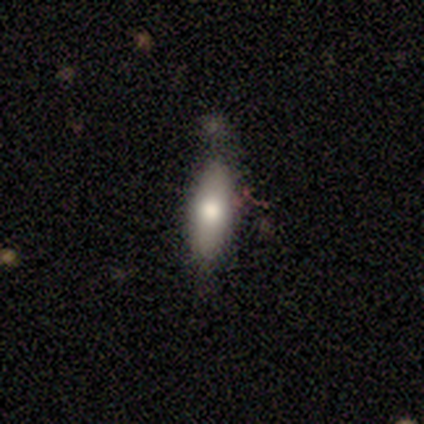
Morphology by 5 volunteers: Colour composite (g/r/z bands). It shows a smooth galaxy with no disk features (80%) that is cigar-shaped (75%). Merging: none (80%).